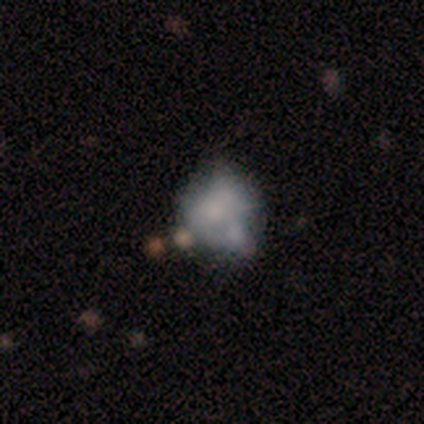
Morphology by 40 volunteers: Smooth or featured? featured or disk (50%)
Edge-on disk? no (90%)
Bar? no (89%)
Spiral arms? no (94%)
Bulge size? none (50%)
Merging? merger (29%)